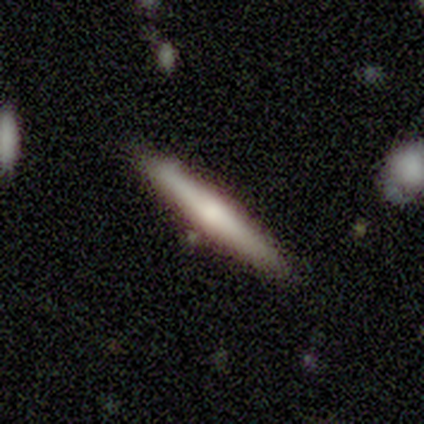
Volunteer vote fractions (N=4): Volunteers were most divided on "smooth or featured": smooth: 75%, featured or disk: 25%, star or artifact: 0%. More confident: how rounded — cigar-shaped (100%); merging — none (100%).